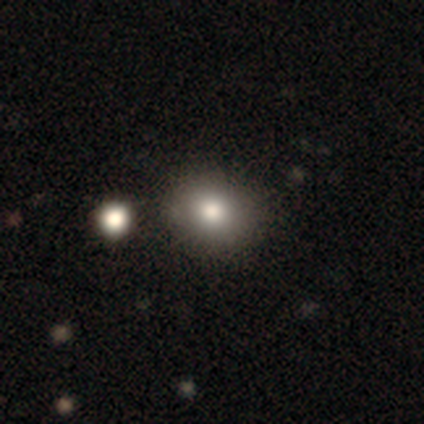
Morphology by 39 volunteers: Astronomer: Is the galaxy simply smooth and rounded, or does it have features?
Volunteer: smooth — 69%.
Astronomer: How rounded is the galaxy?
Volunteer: round — 81%.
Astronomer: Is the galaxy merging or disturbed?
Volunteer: none — 46% (runner-up: merger, 29%).